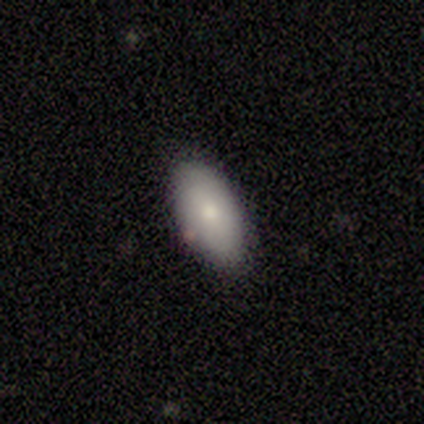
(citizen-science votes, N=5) Overall: smooth (100%). How rounded: in between (80%). Merging: none (100%).